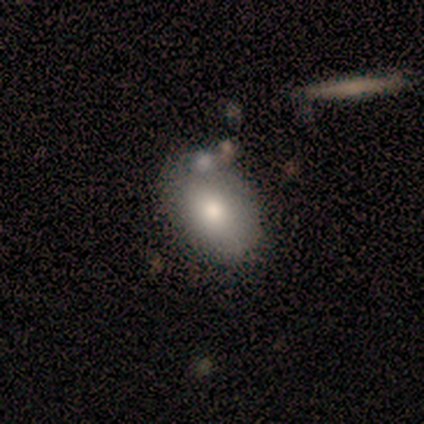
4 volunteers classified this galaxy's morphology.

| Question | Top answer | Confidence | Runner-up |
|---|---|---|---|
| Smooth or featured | smooth | 100% | — |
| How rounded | in between | 100% | — |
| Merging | none | 50% | tied: merger (50%) |